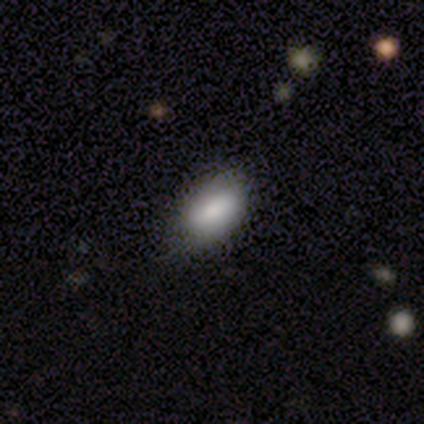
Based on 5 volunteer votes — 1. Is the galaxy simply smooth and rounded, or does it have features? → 100% smooth, 0% featured or disk, 0% star or artifact.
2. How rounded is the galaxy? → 100% in between, 0% round, 0% cigar-shaped.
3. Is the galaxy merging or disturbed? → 80% none, 20% minor disturbance, 0% major disturbance, 0% merger.